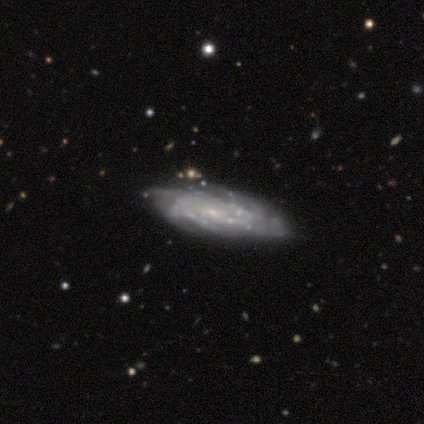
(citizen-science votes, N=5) Overall: featured or disk (80%). Edge-on disk: no (75%). Bar: no (100%). Spiral arms: yes (100%). Spiral arm count: 4 (67%; can't tell 33%). Spiral winding: tight (67%; medium 33%). Bulge size: small (100%). Merging: none (80%).